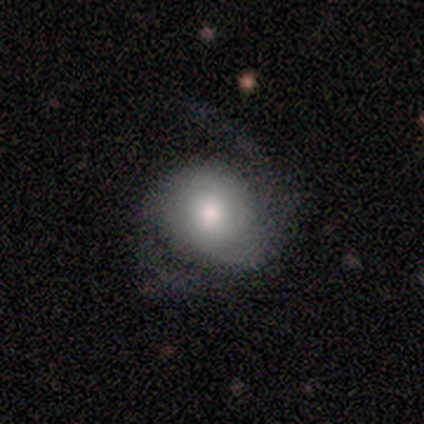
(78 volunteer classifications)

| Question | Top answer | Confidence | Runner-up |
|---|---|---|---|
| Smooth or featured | featured or disk | 63% | smooth (36%) |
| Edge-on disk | no | 100% | — |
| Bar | no | 80% | weak (20%) |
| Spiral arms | yes | 88% | no (12%) |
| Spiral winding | loose | 44% | medium (42%) |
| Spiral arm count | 2 | 74% | can't tell (19%) |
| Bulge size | moderate | 67% | dominant (10%) |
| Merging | none | 25% | major disturbance (14%) |